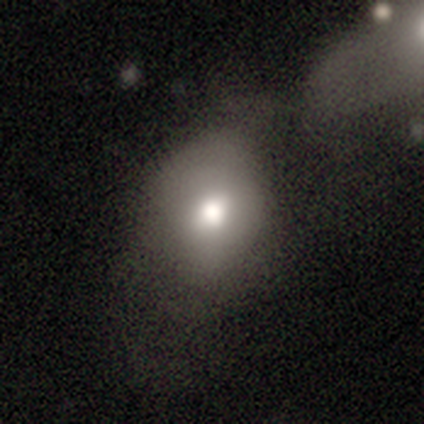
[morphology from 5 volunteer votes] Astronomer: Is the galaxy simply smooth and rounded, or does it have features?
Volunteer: smooth — 100%.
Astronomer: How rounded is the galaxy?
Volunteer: in between — 80%.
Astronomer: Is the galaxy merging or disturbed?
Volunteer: minor disturbance — 60%.